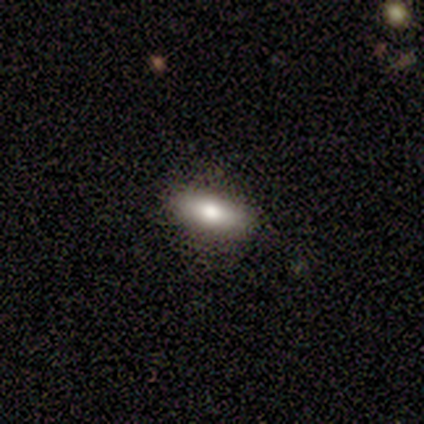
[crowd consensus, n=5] Smooth or featured?
  - smooth: 80% *
  - featured or disk: 20%
  - star or artifact: 0%
How rounded?
  - in between: 100% *
  - round: 0%
  - cigar-shaped: 0%
Merging?
  - none: 80% *
  - minor disturbance: 20%
  - major disturbance: 0%
  - merger: 0%